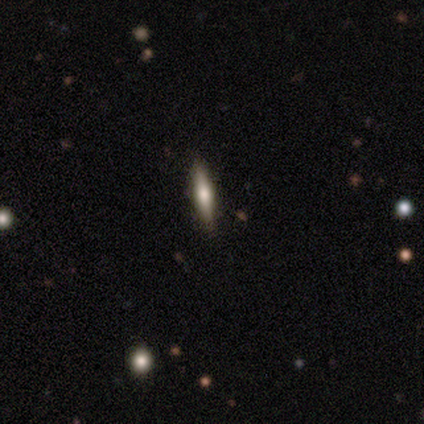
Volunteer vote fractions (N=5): A featured or disk galaxy (60%) viewed edge-on (100%) with a rounded central bulge (100%). Merging: none (100%).